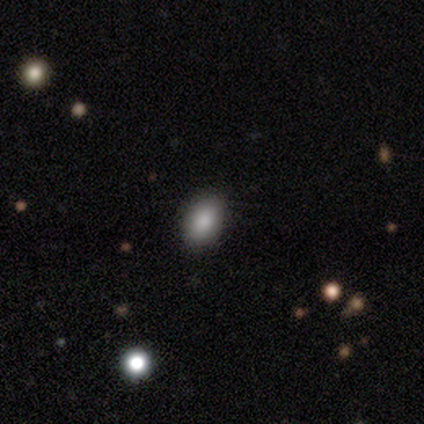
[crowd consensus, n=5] Smooth or featured? 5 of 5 (100%) said smooth. How rounded? 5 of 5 (100%) said in between. Merging? 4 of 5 (80%) said none.